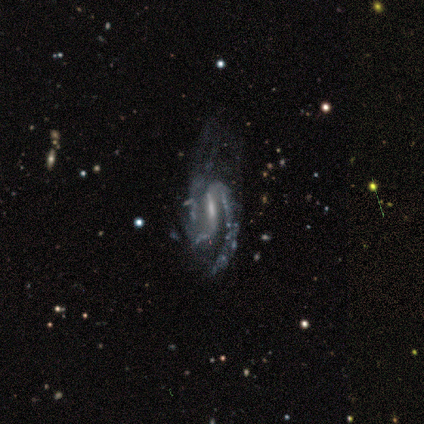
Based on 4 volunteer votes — Overall: featured or disk (100%). Edge-on disk: no (100%). Bar: strong (75%). Spiral arms: yes (100%). Spiral arm count: 2 (100%). Spiral winding: medium (50%; tight 25%). Bulge size: small (50%; moderate 25%). Merging: major disturbance (50%; none 25%).